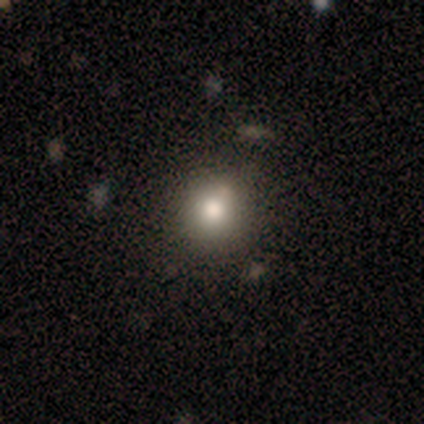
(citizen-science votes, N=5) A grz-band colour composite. It shows a smooth galaxy with no disk features (100%) that is round (100%). Merging: none (80%).